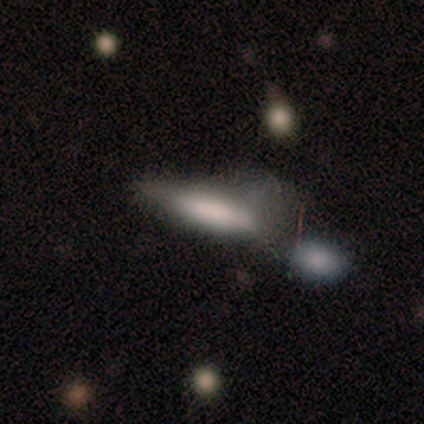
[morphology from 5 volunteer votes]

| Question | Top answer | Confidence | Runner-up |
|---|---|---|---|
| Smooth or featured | smooth | 60% | featured or disk (40%) |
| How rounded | cigar-shaped | 67% | in between (33%) |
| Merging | none | 40% | tied: major disturbance (40%) |